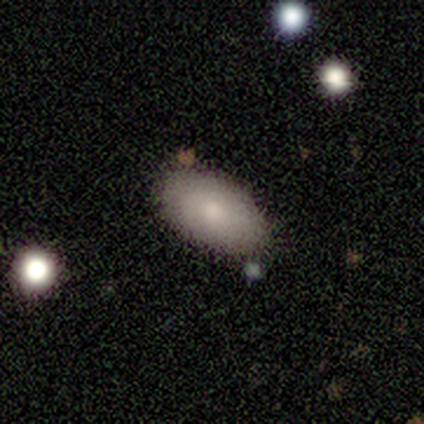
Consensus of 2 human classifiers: Smooth or featured? smooth (100%)
How rounded? in between (100%)
Merging? none (100%)